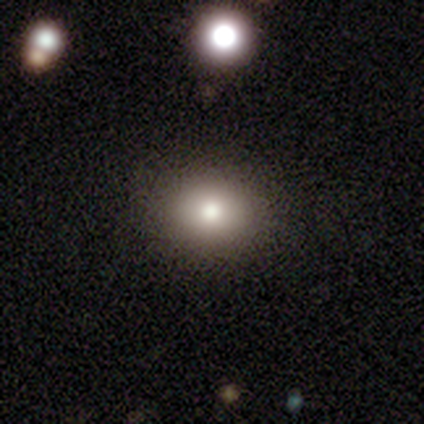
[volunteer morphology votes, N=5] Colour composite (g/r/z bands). It shows a smooth galaxy with no disk features (100%) that is in between round and cigar-shaped (60%). Merging: none (100%).